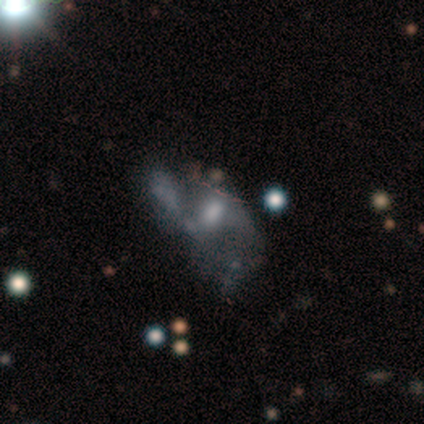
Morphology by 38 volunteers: This is likely a featured or disk galaxy (71%). It is clearly not viewed edge-on (96%). Bar: likely no (69%). Spiral arm pattern: likely no (65%). Central bulge: possibly moderate (46%). Merging: possibly major disturbance (50%).